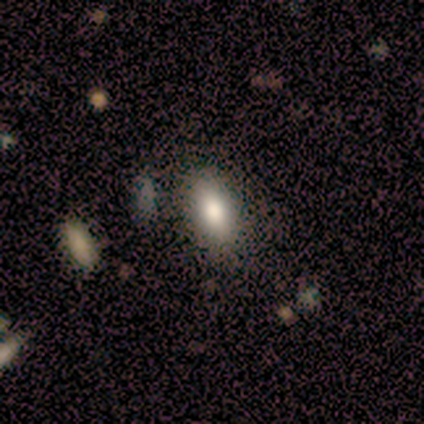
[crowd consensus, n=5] Morphology: type=smooth (100%); roundness=in between (100%); merging=none (100%).